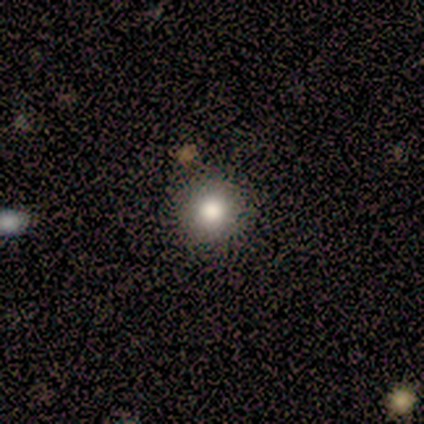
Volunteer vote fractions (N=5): Overall: smooth (80%). How rounded: round (100%). Merging: none (100%).